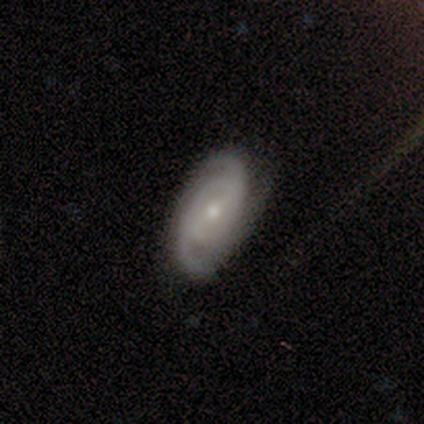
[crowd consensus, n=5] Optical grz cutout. It shows a featured or disk galaxy (60%) with a weak bar (100%), 2 (100%) medium (67%) spiral arms (100%) and a large central bulge (33%, tied with moderate and small). Merging: none (60%).